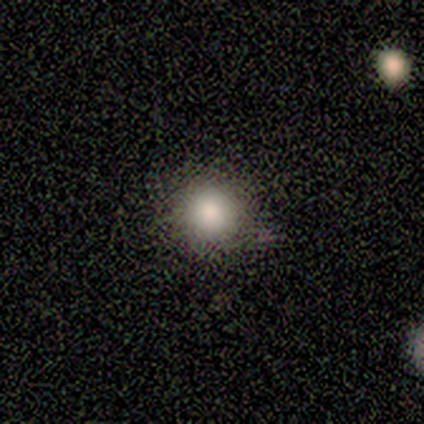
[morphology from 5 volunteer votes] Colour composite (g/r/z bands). It shows a smooth galaxy with no disk features (80%) that is round (100%). Merging: none (75%).